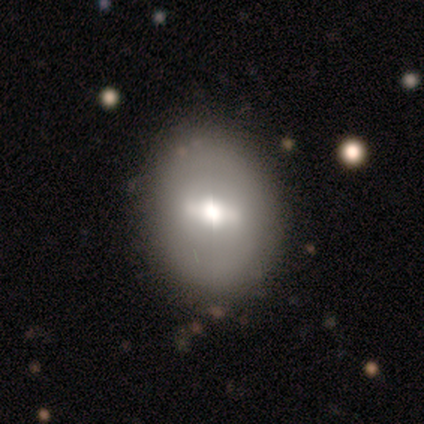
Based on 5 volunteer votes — featured or disk 60%, smooth 40%, star or artifact 0%. Down the decision tree: edge-on disk — no (100%); bar — strong (67%); spiral arms — no (100%); bulge size — moderate (100%); merging — none (80%).